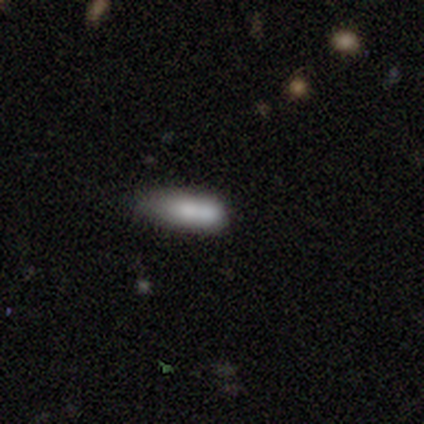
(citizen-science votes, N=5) Volunteers were most divided on "merging" (2-way tie): none: 40%, minor disturbance: 40%, merger: 20%, major disturbance: 0%. More confident: smooth or featured — smooth (100%); how rounded — in between (60%).